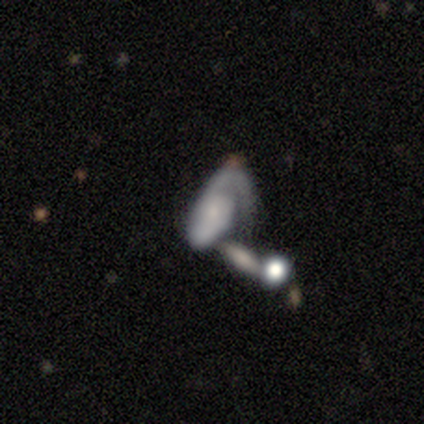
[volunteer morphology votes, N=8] Smooth or featured: featured or disk — 75% (smooth — 25%)
Edge-on disk: no — 100%
Bar: no — 100%
Spiral arms: yes — 100%
Spiral winding: tight — 50% (tied with medium — 50%)
Spiral arm count: 1 — 67% (2 — 17%)
Bulge size: small — 83% (moderate — 17%)
Merging: major disturbance — 50% (none — 25%)